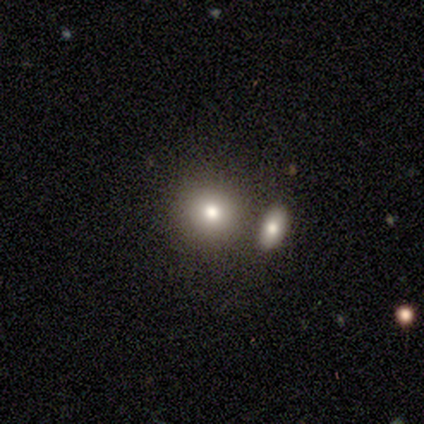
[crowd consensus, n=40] Q: Smooth or featured?
A: smooth (72%); runner-up: featured or disk (15%)
Q: How rounded?
A: round (93%); runner-up: in between (7%)
Q: Merging?
A: none (69%); runner-up: merger (26%)